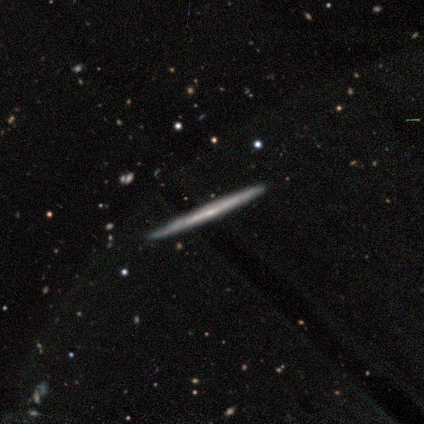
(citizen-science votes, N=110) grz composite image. It shows a featured or disk galaxy (77%) viewed edge-on (98%) with no central bulge (77%). Merging: none (91%).